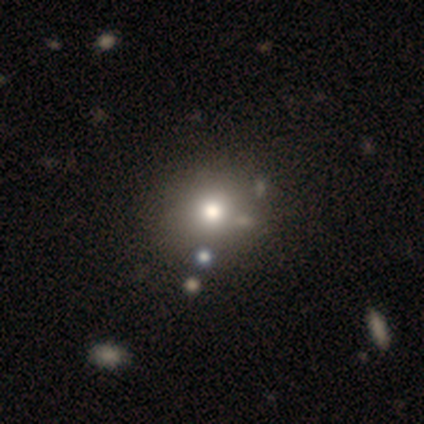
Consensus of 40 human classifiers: Smooth or featured?
  - smooth: 62% *
  - featured or disk: 20%
  - star or artifact: 18%
How rounded?
  - round: 84% *
  - in between: 16%
  - cigar-shaped: 0%
Merging?
  - none: 48% *
  - merger: 18%
  - minor disturbance: 3%
  - major disturbance: 3%